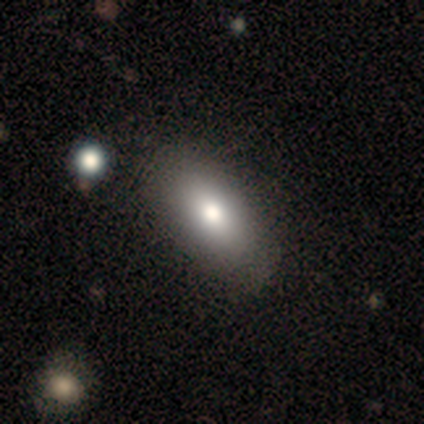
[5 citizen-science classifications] Overall: smooth (60%; featured or disk 40%). How rounded: in between (100%). Merging: none (80%).